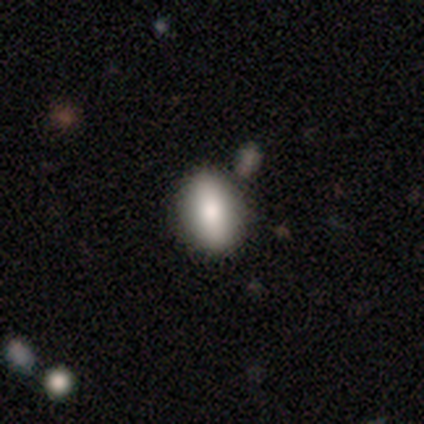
smooth_or_featured: featured or disk (p=0.60) [alt: smooth p=0.40]
disk_edge_on: no (p=1.00)
bar: no (p=0.67) [alt: strong p=0.33]
has_spiral_arms: no (p=1.00)
bulge_size: moderate (p=0.67) [alt: large p=0.33]
merging: none (p=0.80) [alt: minor disturbance p=0.20]